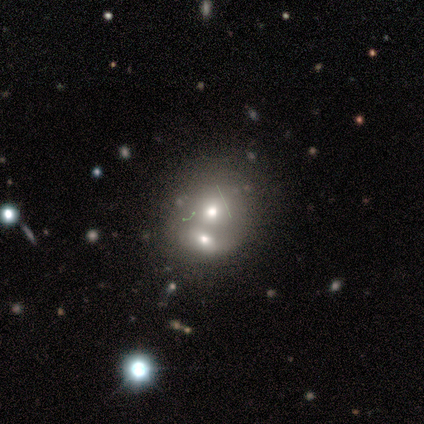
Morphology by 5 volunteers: featured or disk 60%, smooth 40%, star or artifact 0%. Down the decision tree: edge-on disk — no (100%); bar — no (100%); spiral arms — no (67%); bulge size — moderate (67%); merging — merger (100%).